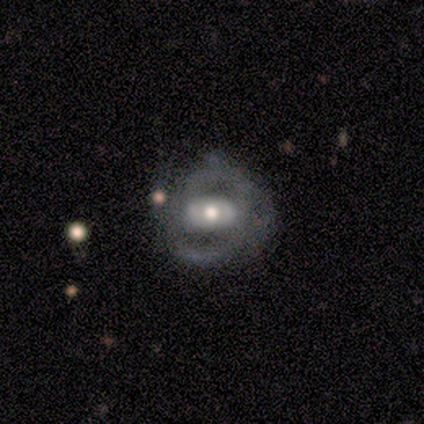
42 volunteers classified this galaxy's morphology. A featured or disk galaxy (86%) with no bar (46%), 2 (100%) medium (63%) spiral arms (54%) and a moderate central bulge (60%).

Vote fractions:
- Smooth or featured? featured or disk: 86% / smooth: 12% / star or artifact: 2%
- Edge-on disk? no: 97% / yes: 3%
- Bar? no: 46% / strong: 37% / weak: 17%
- Spiral arms? yes: 54% / no: 46%
- Spiral winding? medium: 63% / tight: 37% / loose: 0%
- Spiral arm count? 2: 100% / 1: 0% / 3: 0% / 4: 0% / more than 4: 0% / can't tell: 0%
- Bulge size? moderate: 60% / large: 23% / small: 17% / dominant: 0% / none: 0%
- Merging? none: 54% / minor disturbance: 29% / major disturbance: 12% / merger: 5%